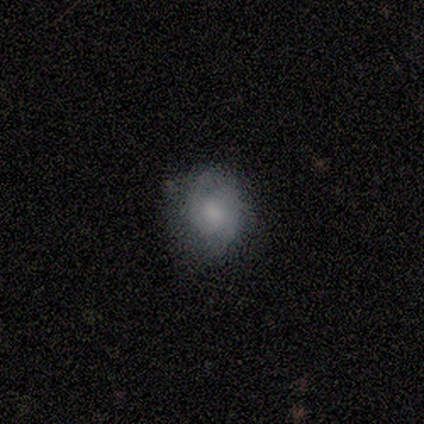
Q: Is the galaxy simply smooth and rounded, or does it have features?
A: smooth — 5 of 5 (100%).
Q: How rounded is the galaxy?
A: round — 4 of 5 (80%).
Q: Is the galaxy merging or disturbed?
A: none — 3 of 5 (60%).